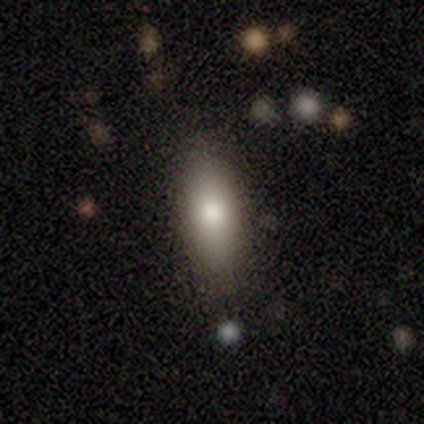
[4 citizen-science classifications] Q: Smooth or featured?
A: smooth (75%); runner-up: featured or disk (25%)
Q: How rounded?
A: in between (100%)
Q: Merging?
A: none (100%)